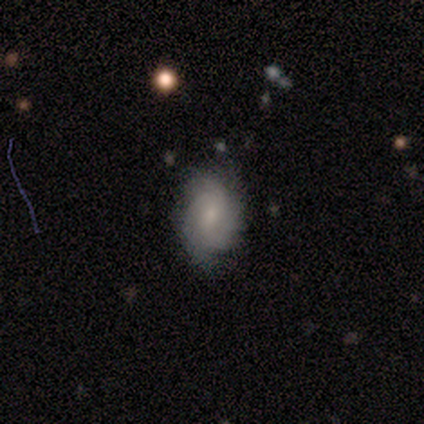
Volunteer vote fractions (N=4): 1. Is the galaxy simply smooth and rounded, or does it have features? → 75% featured or disk, 25% smooth, 0% star or artifact.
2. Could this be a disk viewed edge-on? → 100% no, 0% yes.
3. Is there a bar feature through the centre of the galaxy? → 67% no, 33% weak, 0% strong.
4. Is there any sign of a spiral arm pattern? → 100% yes, 0% no.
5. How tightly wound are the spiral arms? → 100% tight, 0% medium, 0% loose.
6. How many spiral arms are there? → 33% 3 (tied), 33% more than 4 (tied), 33% can't tell (tied), 0% 1, 0% 2, 0% 4.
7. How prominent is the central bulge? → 67% small, 33% moderate, 0% dominant, 0% large, 0% none.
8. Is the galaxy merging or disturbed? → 50% none (tied), 50% minor disturbance (tied), 0% major disturbance, 0% merger.